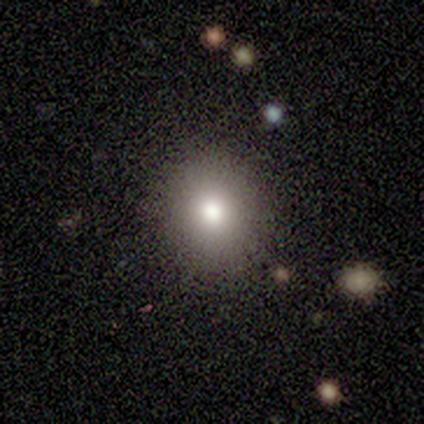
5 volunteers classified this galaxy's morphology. smooth_or_featured: smooth (p=0.80) [alt: featured or disk p=0.20]
how_rounded: round (p=0.50) [tied with: in between p=0.50]
merging: none (p=1.00)